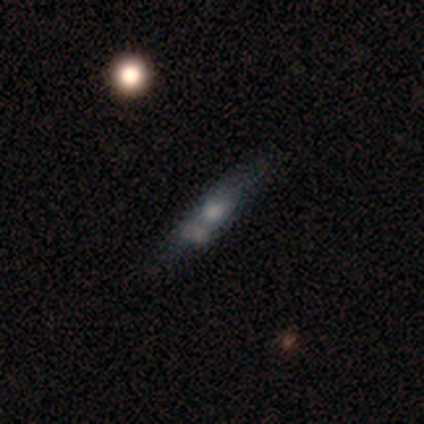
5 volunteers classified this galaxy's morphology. Smooth or featured? featured or disk (60%)
Edge-on disk? yes (67%)
Edge-on bulge? rounded (100%)
Merging? none (40%, tied with merger)